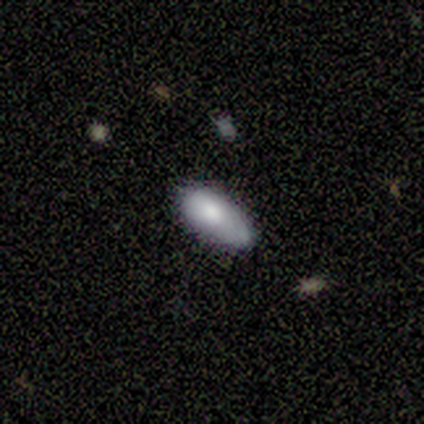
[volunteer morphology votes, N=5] smooth 60%, featured or disk 20%, star or artifact 20%. Down the decision tree: how rounded — in between (67%); merging — none (50%, tied with minor disturbance).